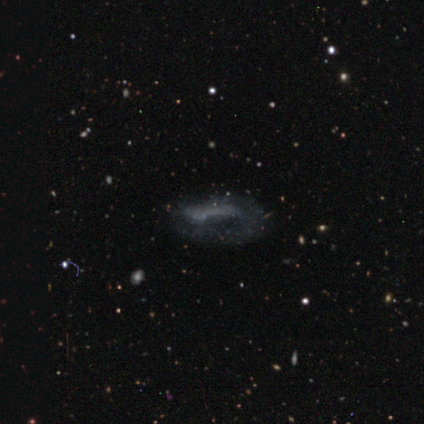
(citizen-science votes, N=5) A smooth galaxy with no disk features (40%, tied with featured or disk) that is in between round and cigar-shaped (50%, tied with cigar-shaped).

Vote fractions:
- Smooth or featured? smooth: 40% (tied) / featured or disk: 40% (tied) / star or artifact: 20%
- How rounded? in between: 50% (tied) / cigar-shaped: 50% (tied) / round: 0%
- Merging? major disturbance: 100% / none: 0% / minor disturbance: 0% / merger: 0%